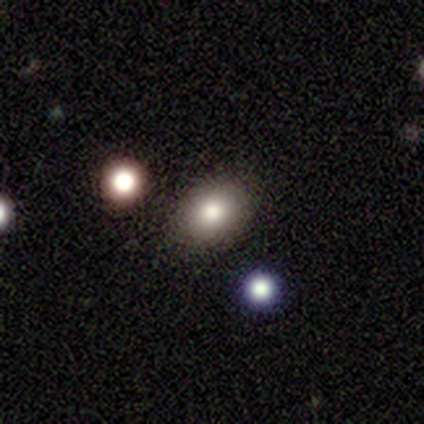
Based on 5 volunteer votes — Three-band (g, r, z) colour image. It shows a smooth galaxy with no disk features (80%) that is round (50%, tied with in between). Merging: none (60%).